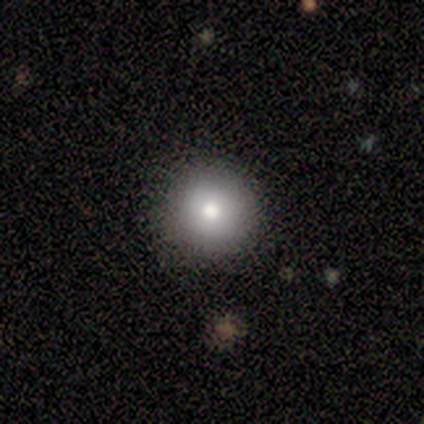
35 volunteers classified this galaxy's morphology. type=smooth (74%); roundness=round (100%); merging=none (84%).